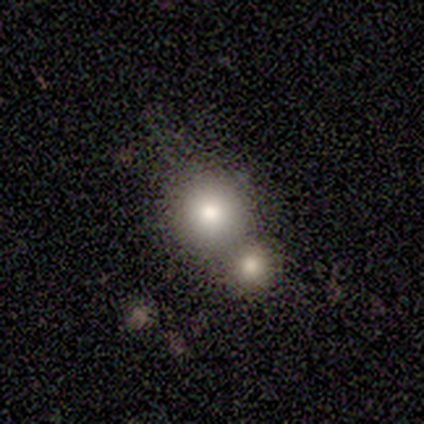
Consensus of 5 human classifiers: This appears to be a smooth galaxy with no disk features (60%) that is round (100%). Merging: merger (75%).